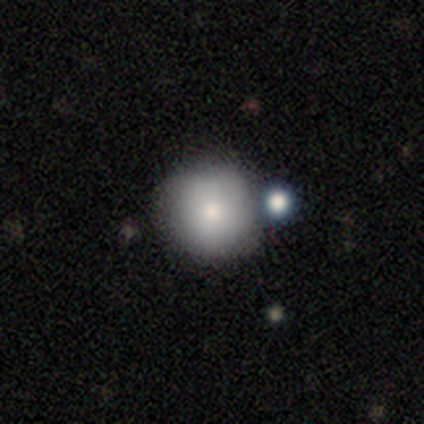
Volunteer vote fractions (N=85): smooth_or_featured: smooth (p=0.78) [alt: star or artifact p=0.13]
how_rounded: round (p=0.94) [alt: in between p=0.06]
merging: none (p=0.76) [alt: minor disturbance p=0.11]